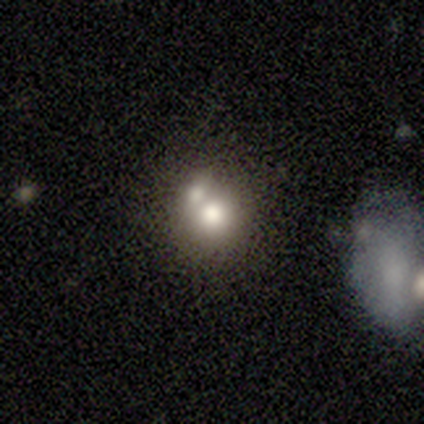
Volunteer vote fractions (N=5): Smooth or featured? 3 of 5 (60%) said featured or disk. Edge-on disk? 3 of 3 (100%) said no. Bar? 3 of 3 (100%) said no. Spiral arms? 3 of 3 (100%) said no. Bulge size? 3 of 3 (100%) said moderate. Merging? 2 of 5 (40%, tied with merger) said none.